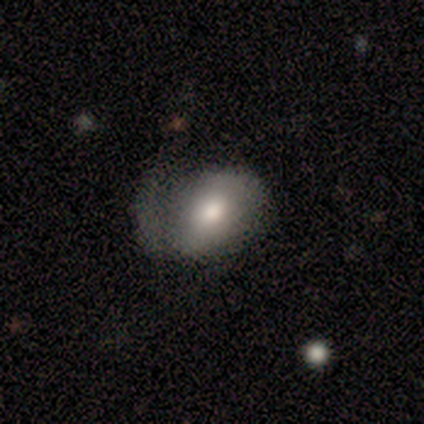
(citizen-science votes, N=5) This appears to be a smooth galaxy with no disk features (80%) that is round (50%, tied with in between). Merging: none (40%, tied with major disturbance).